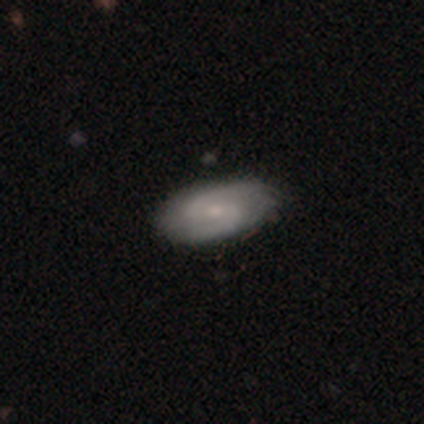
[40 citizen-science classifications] Volunteers were most divided on "spiral winding": medium: 44%, tight: 37%, loose: 19%. More confident: spiral arms — yes (100%); edge-on disk — no (96%); spiral arm count — 2 (96%); merging — none (85%); bar — weak (70%); smooth or featured — featured or disk (70%); bulge size — small (56%).